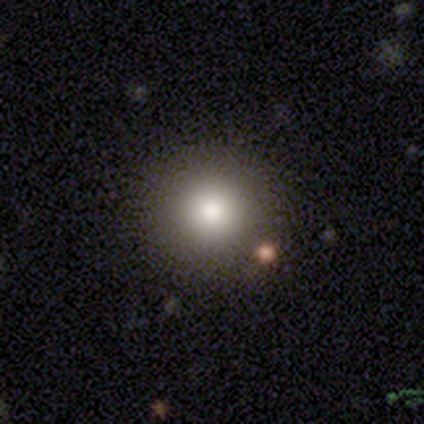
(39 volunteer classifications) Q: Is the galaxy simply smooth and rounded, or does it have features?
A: smooth — 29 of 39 (74%).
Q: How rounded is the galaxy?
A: round — 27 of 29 (93%).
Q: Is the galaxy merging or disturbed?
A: none — 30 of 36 (83%).